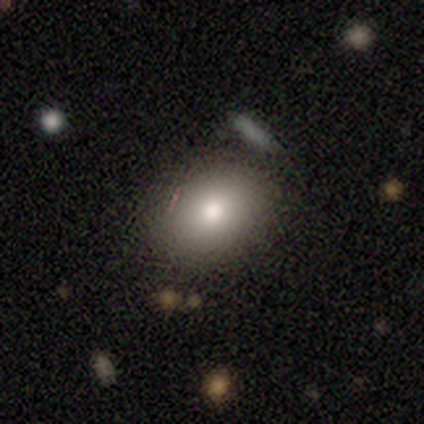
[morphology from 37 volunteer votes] Smooth or featured: smooth — 81% (star or artifact — 11%)
How rounded: in between — 80% (round — 20%)
Merging: none — 79% (minor disturbance — 9%)